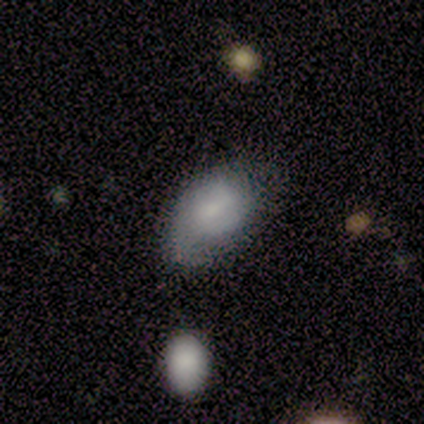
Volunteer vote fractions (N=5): Smooth or featured? 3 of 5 (60%) said smooth. How rounded? 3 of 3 (100%) said in between. Merging? 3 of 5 (60%) said none.